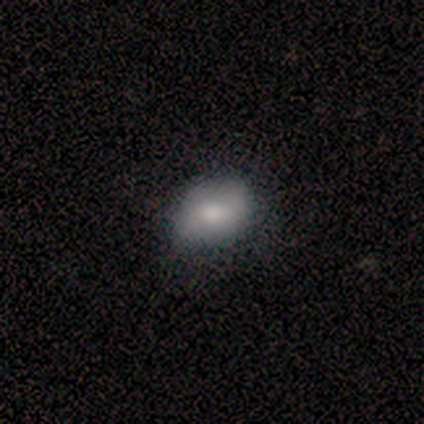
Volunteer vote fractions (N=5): smooth-or-featured: featured or disk: 60% | smooth: 40% | star or artifact: 0%
  disk-edge-on: no: 100% | yes: 0%
    bar: no: 100% | strong: 0% | weak: 0%
    has-spiral-arms: yes: 67% | no: 33%
      spiral-winding: loose: 100% | tight: 0% | medium: 0%
      spiral-arm-count: 2: 100% | 1: 0% | 3: 0% | 4: 0% | more than 4: 0% | can't tell: 0%
    bulge-size: large: 33% (tied) | moderate: 33% (tied) | small: 33% (tied) | dominant: 0% | none: 0%
  merging: none: 60% | minor disturbance: 40% | major disturbance: 0% | merger: 0%